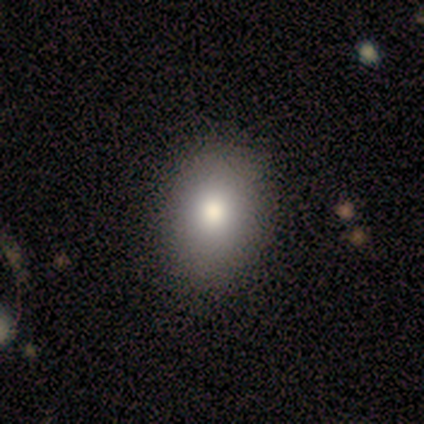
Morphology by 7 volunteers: Smooth or featured? smooth (86%)
How rounded? in between (67%)
Merging? none (86%)